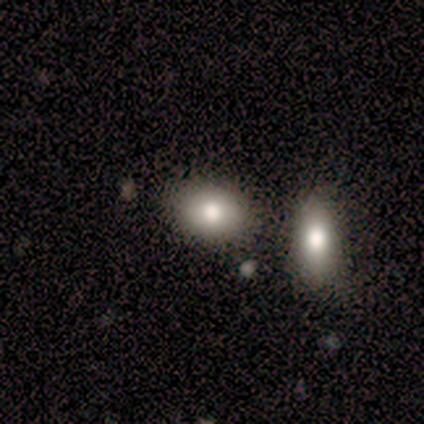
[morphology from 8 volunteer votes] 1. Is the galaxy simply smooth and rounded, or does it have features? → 88% smooth, 12% featured or disk, 0% star or artifact.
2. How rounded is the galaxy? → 86% in between, 14% round, 0% cigar-shaped.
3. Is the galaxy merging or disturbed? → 62% none, 38% merger, 0% minor disturbance, 0% major disturbance.